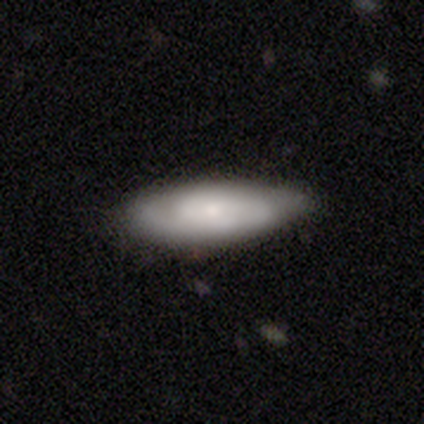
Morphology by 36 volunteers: Q: Smooth or featured?
A: featured or disk (64%); runner-up: smooth (36%)
Q: Edge-on disk?
A: no (83%); runner-up: yes (17%)
Q: Bar?
A: no (68%); runner-up: weak (26%)
Q: Spiral arms?
A: yes (84%); runner-up: no (16%)
Q: Spiral winding?
A: tight (50%); runner-up: medium (38%)
Q: Spiral arm count?
A: 2 (56%); runner-up: can't tell (31%)
Q: Bulge size?
A: small (74%); runner-up: moderate (21%)
Q: Merging?
A: none (56%); runner-up: minor disturbance (39%)